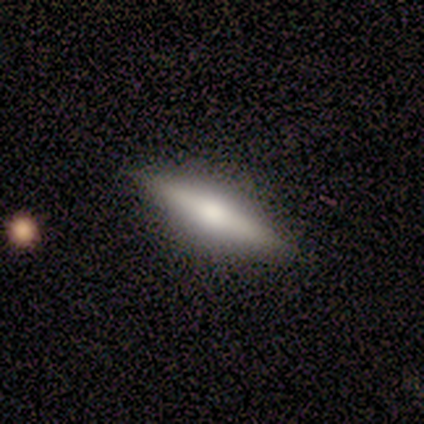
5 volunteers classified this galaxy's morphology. Volunteers were most divided on "edge-on bulge": rounded: 75%, none: 25%, boxy: 0%. More confident: edge-on disk — yes (100%); smooth or featured — featured or disk (80%); merging — none (80%).